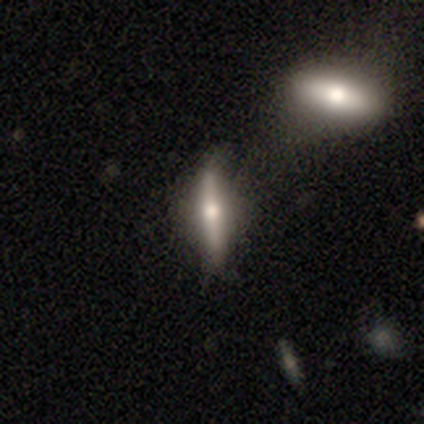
Q: Smooth or featured?
A: smooth (80%); runner-up: featured or disk (20%)
Q: How rounded?
A: cigar-shaped (100%)
Q: Merging?
A: none (60%); runner-up: minor disturbance (40%)